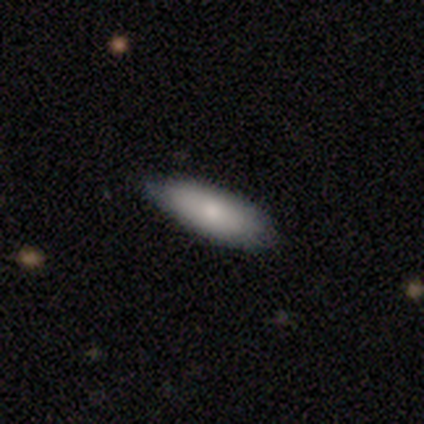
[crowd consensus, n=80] This appears to be a smooth galaxy with no disk features (81%) that is in between round and cigar-shaped (83%). Merging: none (43%).